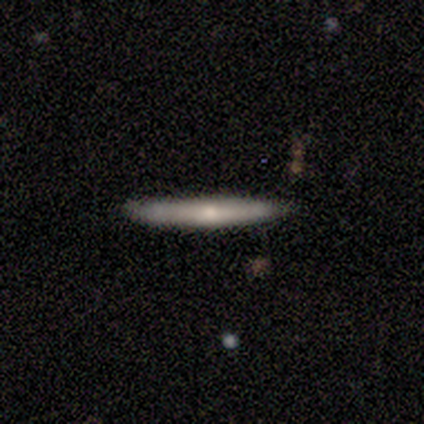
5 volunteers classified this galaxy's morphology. Q: Smooth or featured?
A: featured or disk (80%); runner-up: smooth (20%)
Q: Edge-on disk?
A: yes (100%)
Q: Edge-on bulge?
A: rounded (75%); runner-up: none (25%)
Q: Merging?
A: none (80%); runner-up: minor disturbance (20%)